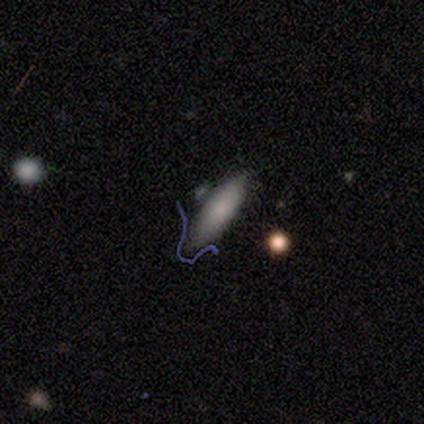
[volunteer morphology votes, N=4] Smooth or featured?
  - smooth: 50% * (tied)
  - featured or disk: 50% * (tied)
  - star or artifact: 0%
How rounded?
  - cigar-shaped: 100% *
  - round: 0%
  - in between: 0%
Merging?
  - none: 50% *
  - minor disturbance: 25%
  - major disturbance: 25%
  - merger: 0%